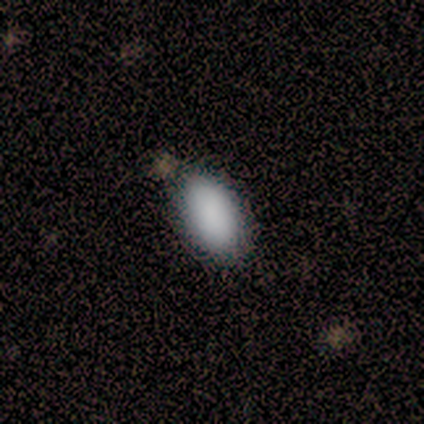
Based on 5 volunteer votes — Morphology: type=smooth (80%); roundness=in between (100%); merging=none (75%).